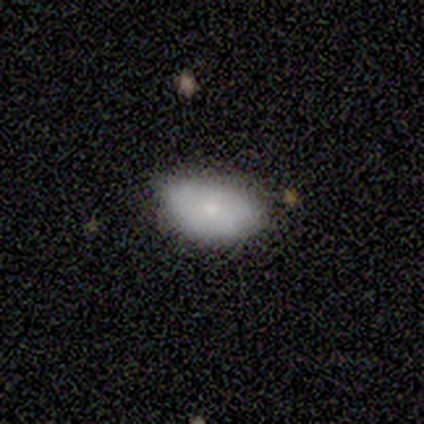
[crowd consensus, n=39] This appears to be a smooth galaxy with no disk features (79%) that is in between round and cigar-shaped (97%). Merging: none (49%).